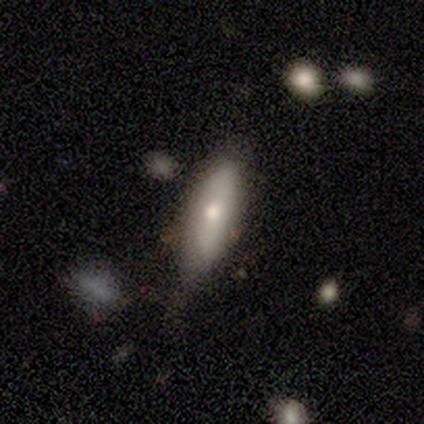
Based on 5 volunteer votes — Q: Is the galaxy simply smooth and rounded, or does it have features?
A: featured or disk — 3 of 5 (60%).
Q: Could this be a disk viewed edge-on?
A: no — 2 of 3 (67%).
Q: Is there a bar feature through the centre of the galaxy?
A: weak — 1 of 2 (50%, tied with no).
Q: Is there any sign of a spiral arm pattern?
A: no — 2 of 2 (100%).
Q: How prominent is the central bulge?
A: moderate — 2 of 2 (100%).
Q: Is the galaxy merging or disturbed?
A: none — 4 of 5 (80%).